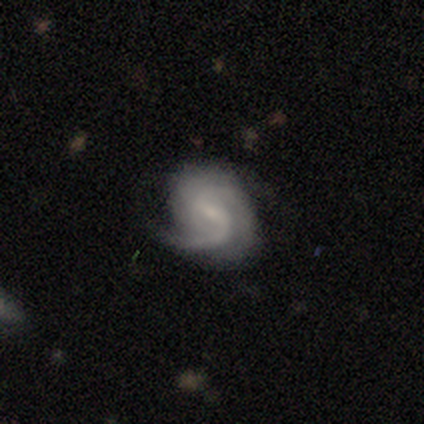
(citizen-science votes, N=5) Smooth or featured?
  - featured or disk: 100% *
  - smooth: 0%
  - star or artifact: 0%
Edge-on disk?
  - no: 100% *
  - yes: 0%
Bar?
  - weak: 80% *
  - strong: 20%
  - no: 0%
Spiral arms?
  - yes: 100% *
  - no: 0%
Spiral winding?
  - medium: 80% *
  - loose: 20%
  - tight: 0%
Spiral arm count?
  - 2: 80% *
  - 3: 20%
  - 1: 0%
  - 4: 0%
  - more than 4: 0%
  - can't tell: 0%
Bulge size?
  - small: 60% *
  - large: 20%
  - none: 20%
  - dominant: 0%
  - moderate: 0%
Merging?
  - none: 80% *
  - minor disturbance: 20%
  - major disturbance: 0%
  - merger: 0%